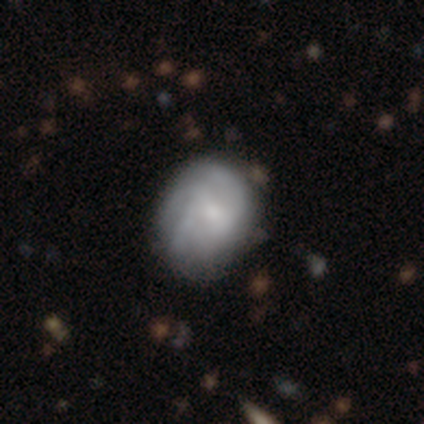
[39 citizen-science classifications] smooth_or_featured: featured or disk (p=0.72) [alt: smooth p=0.28]
disk_edge_on: no (p=1.00)
bar: no (p=0.61) [alt: weak p=0.32]
has_spiral_arms: yes (p=0.86) [alt: no p=0.14]
spiral_winding: tight (p=0.42) [alt: medium p=0.38]
spiral_arm_count: 3 (p=0.46) [tied with: can't tell p=0.46]
bulge_size: small (p=0.57) [alt: moderate p=0.18]
merging: none (p=0.44) [alt: minor disturbance p=0.21]